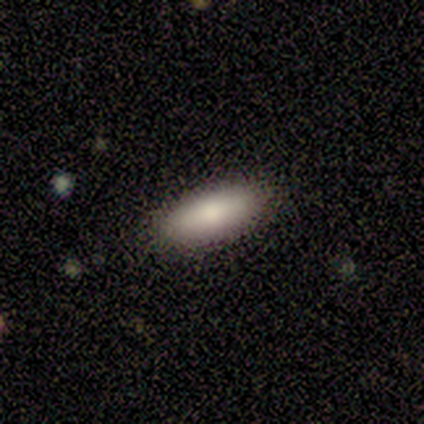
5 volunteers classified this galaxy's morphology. A smooth galaxy with no disk features (40%, tied with featured or disk) that is in between round and cigar-shaped (50%, tied with cigar-shaped).

Vote fractions:
- Smooth or featured? smooth: 40% (tied) / featured or disk: 40% (tied) / star or artifact: 20%
- How rounded? in between: 50% (tied) / cigar-shaped: 50% (tied) / round: 0%
- Merging? none: 100% / minor disturbance: 0% / major disturbance: 0% / merger: 0%